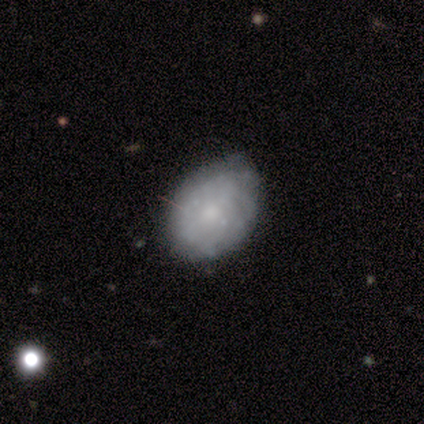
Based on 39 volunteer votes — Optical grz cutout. It shows a featured or disk galaxy (49%) with no bar (83%), tight (56%) spiral arms (50%, tied with no) and a small central bulge (61%). Merging: none (54%).